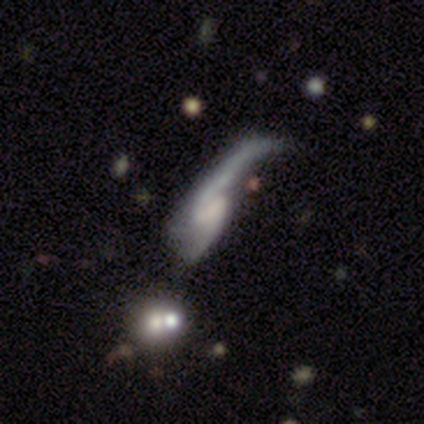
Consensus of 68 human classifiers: smooth_or_featured: featured or disk (p=0.88) [alt: smooth p=0.09]
disk_edge_on: no (p=0.92) [alt: yes p=0.08]
bar: weak (p=0.47) [tied with: no p=0.47]
has_spiral_arms: yes (p=0.87) [alt: no p=0.13]
spiral_winding: loose (p=0.83) [alt: medium p=0.17]
spiral_arm_count: 2 (p=0.77) [alt: 1 p=0.12]
bulge_size: none (p=0.55) [alt: moderate p=0.24]
merging: major disturbance (p=0.59) [alt: merger p=0.21]